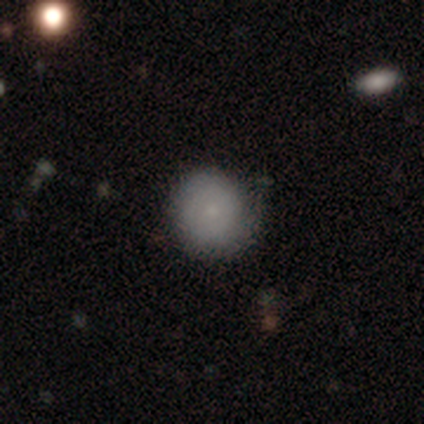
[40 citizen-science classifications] A smooth galaxy with no disk features (68%) that is round (100%).

Vote fractions:
- Smooth or featured? smooth: 68% / featured or disk: 25% / star or artifact: 8%
- How rounded? round: 100% / in between: 0% / cigar-shaped: 0%
- Merging? none: 70% / minor disturbance: 24% / major disturbance: 5% / merger: 0%